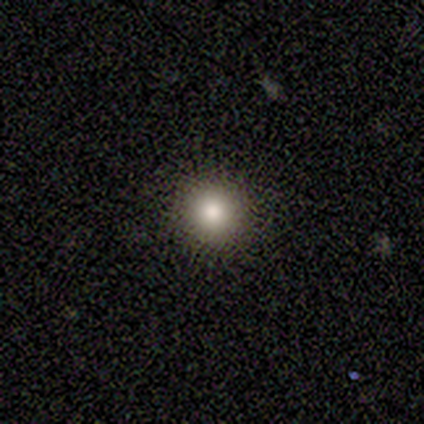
Smooth or featured? smooth (77%)
How rounded? round (97%)
Merging? none (94%)